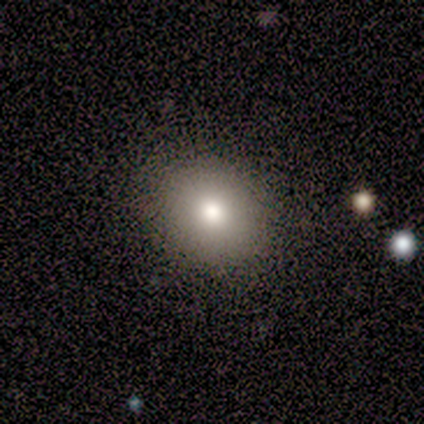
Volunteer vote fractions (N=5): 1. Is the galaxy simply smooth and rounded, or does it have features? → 80% smooth, 20% star or artifact, 0% featured or disk.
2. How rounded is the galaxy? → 50% round (tied), 50% in between (tied), 0% cigar-shaped.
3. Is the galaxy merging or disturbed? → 100% none, 0% minor disturbance, 0% major disturbance, 0% merger.